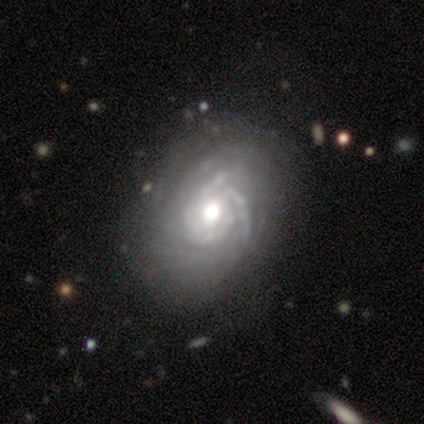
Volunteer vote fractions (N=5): A featured or disk galaxy (80%) with no bar (75%), more than 4 (50%) tight (75%) spiral arms (100%) and a moderate central bulge (75%).

Vote fractions:
- Smooth or featured? featured or disk: 80% / star or artifact: 20% / smooth: 0%
- Edge-on disk? no: 100% / yes: 0%
- Bar? no: 75% / strong: 25% / weak: 0%
- Spiral arms? yes: 100% / no: 0%
- Spiral winding? tight: 75% / medium: 25% / loose: 0%
- Spiral arm count? more than 4: 50% / 3: 25% / can't tell: 25% / 1: 0% / 2: 0% / 4: 0%
- Bulge size? moderate: 75% / large: 25% / dominant: 0% / small: 0% / none: 0%
- Merging? none: 75% / minor disturbance: 25% / major disturbance: 0% / merger: 0%